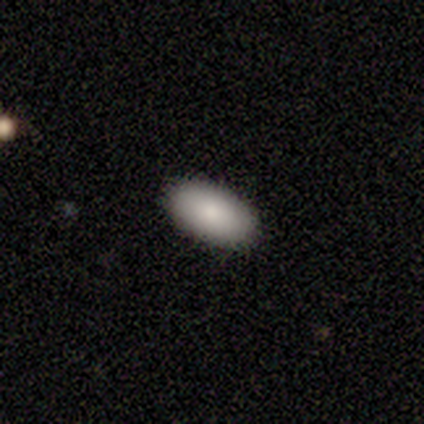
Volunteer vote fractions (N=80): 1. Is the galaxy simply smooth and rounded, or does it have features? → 88% smooth, 8% featured or disk, 5% star or artifact.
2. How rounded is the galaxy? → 97% in between, 3% cigar-shaped, 0% round.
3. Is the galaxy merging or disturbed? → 51% none, 1% minor disturbance, 0% major disturbance, 0% merger.